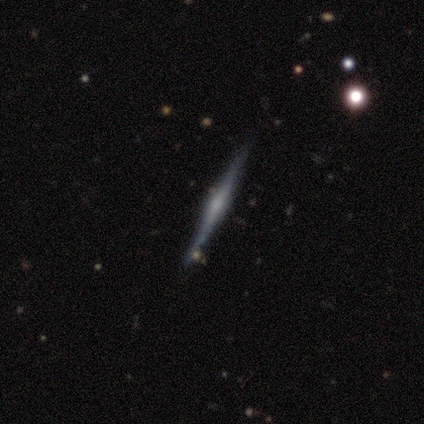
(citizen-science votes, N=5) Smooth or featured: featured or disk — 100%
Edge-on disk: yes — 100%
Edge-on bulge: rounded — 80% (none — 20%)
Merging: none — 100%